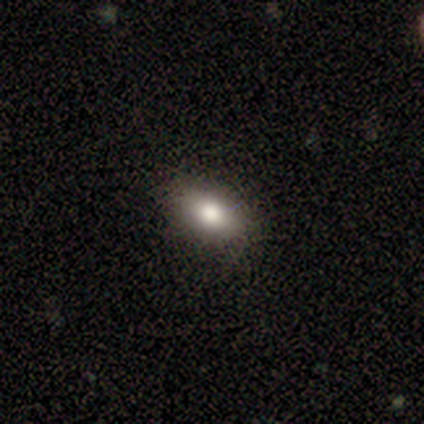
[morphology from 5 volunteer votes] Smooth or featured? smooth (100%)
How rounded? in between (60%)
Merging? none (80%)